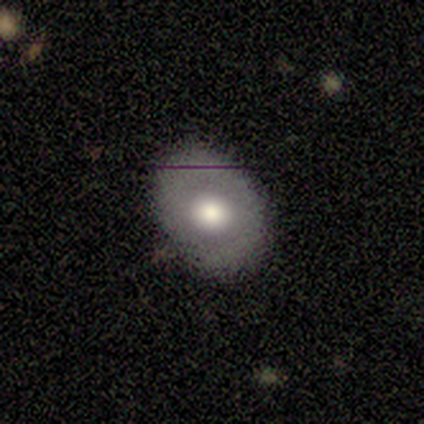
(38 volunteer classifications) Q: Smooth or featured?
A: smooth (55%); runner-up: featured or disk (34%)
Q: How rounded?
A: in between (86%); runner-up: round (14%)
Q: Merging?
A: none (74%); runner-up: minor disturbance (21%)